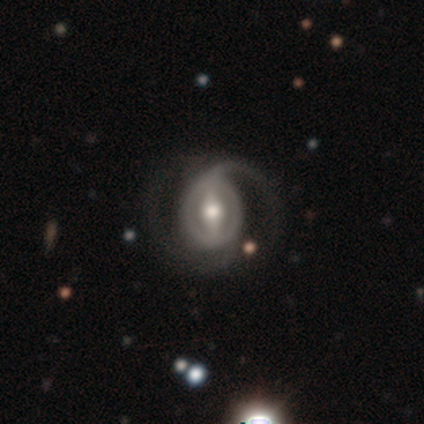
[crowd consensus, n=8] smooth_or_featured: featured or disk (p=0.88) [alt: star or artifact p=0.12]
disk_edge_on: no (p=0.86) [alt: yes p=0.14]
bar: strong (p=0.50) [alt: no p=0.33]
has_spiral_arms: yes (p=0.83) [alt: no p=0.17]
spiral_winding: medium (p=0.60) [alt: tight p=0.40]
spiral_arm_count: 2 (p=0.80) [alt: can't tell p=0.20]
bulge_size: moderate (p=0.67) [alt: small p=0.17]
merging: none (p=0.71) [alt: minor disturbance p=0.14]